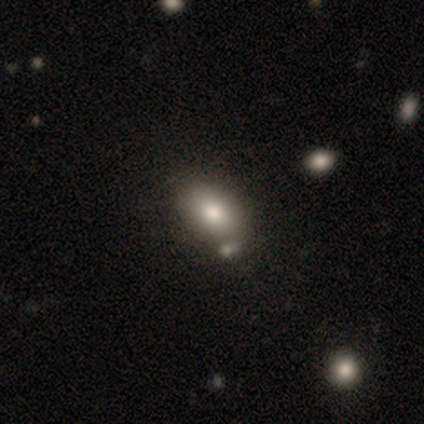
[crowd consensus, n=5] smooth-or-featured: smooth: 60% | featured or disk: 40% | star or artifact: 0%
  how-rounded: in between: 100% | round: 0% | cigar-shaped: 0%
  merging: none: 100% | minor disturbance: 0% | major disturbance: 0% | merger: 0%